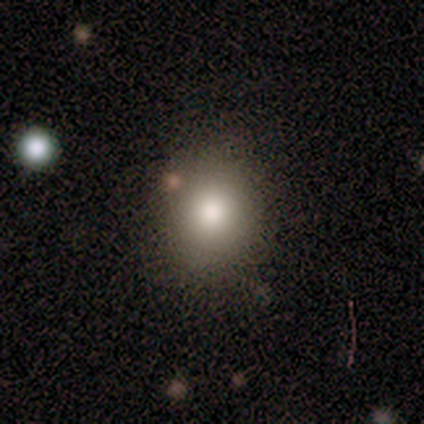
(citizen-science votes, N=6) This appears to be a smooth galaxy with no disk features (67%) that is round (100%). Merging: none (80%).